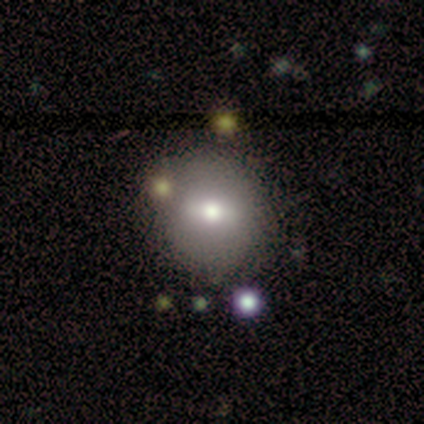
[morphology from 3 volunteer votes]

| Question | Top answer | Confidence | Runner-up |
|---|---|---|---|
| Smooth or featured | smooth | 67% | star or artifact (33%) |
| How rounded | round | 100% | — |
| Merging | none | 100% | — |